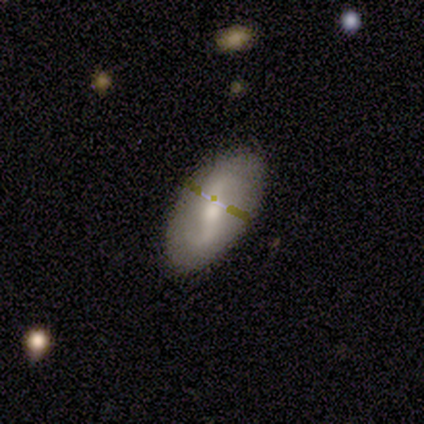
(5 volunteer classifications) Volunteers were most divided on "bar": no: 50%, strong: 25%, weak: 25%. More confident: edge-on disk — no (100%); smooth or featured — featured or disk (80%); merging — none (80%); spiral arms — no (75%); bulge size — moderate (75%).